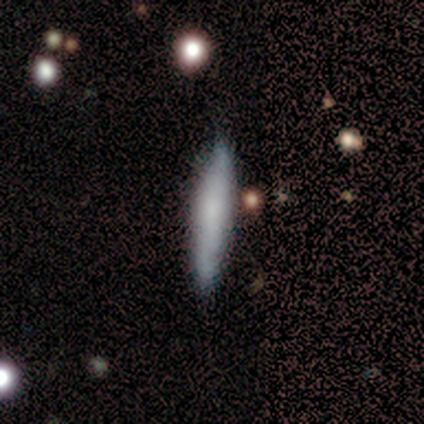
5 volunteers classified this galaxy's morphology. smooth_or_featured: smooth (p=0.80) [alt: featured or disk p=0.20]
how_rounded: cigar-shaped (p=0.75) [alt: in between p=0.25]
merging: none (p=0.80) [alt: minor disturbance p=0.20]